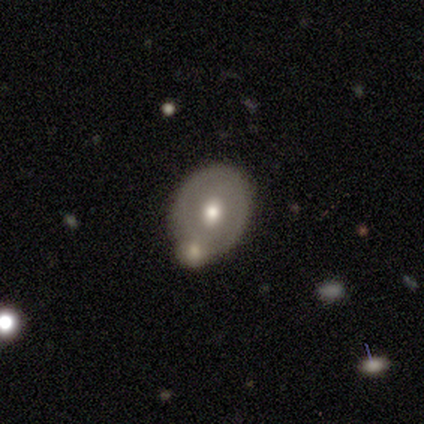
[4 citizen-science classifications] A smooth galaxy with no disk features (50%, tied with featured or disk) that is in between round and cigar-shaped (100%).

Vote fractions:
- Smooth or featured? smooth: 50% (tied) / featured or disk: 50% (tied) / star or artifact: 0%
- How rounded? in between: 100% / round: 0% / cigar-shaped: 0%
- Merging? merger: 50% / none: 25% / major disturbance: 25% / minor disturbance: 0%